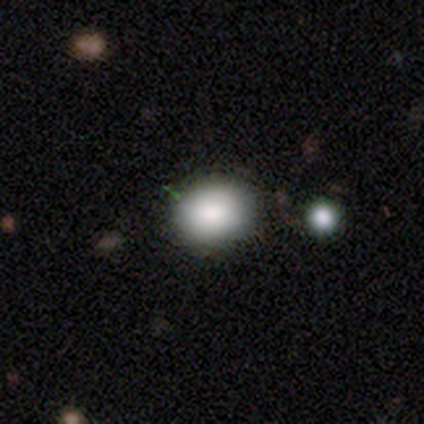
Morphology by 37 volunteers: smooth_or_featured: smooth (p=0.95) [alt: featured or disk p=0.05]
how_rounded: round (p=0.63) [alt: in between p=0.34]
merging: none (p=0.89) [alt: minor disturbance p=0.05]